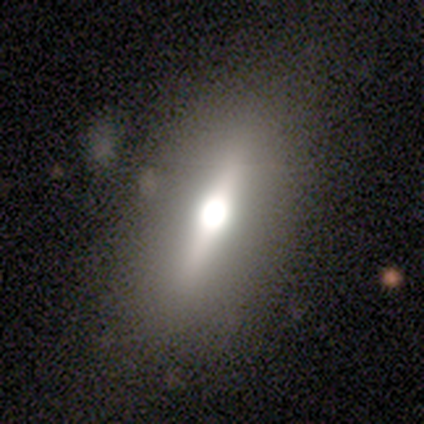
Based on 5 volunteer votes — featured or disk 60%, smooth 20%, star or artifact 20%. Down the decision tree: edge-on disk — yes (67%); edge-on bulge — rounded (100%); merging — none (75%).